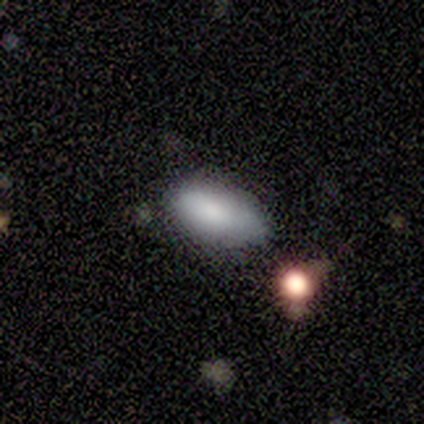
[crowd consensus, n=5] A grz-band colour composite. It shows a smooth galaxy with no disk features (100%) that is in between round and cigar-shaped (100%). Merging: minor disturbance (80%).